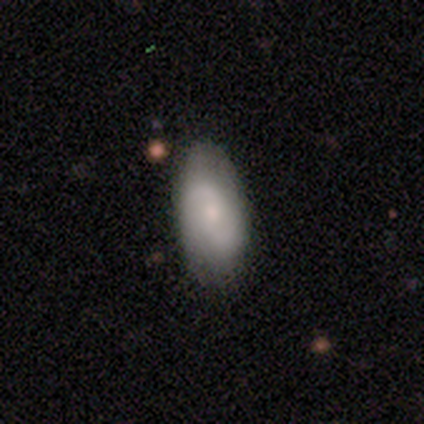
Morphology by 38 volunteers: Smooth or featured: featured or disk — 53% (smooth — 42%)
Edge-on disk: no — 100%
Bar: weak — 60% (no — 40%)
Spiral arms: yes — 90% (no — 10%)
Spiral winding: medium — 39% (loose — 33%)
Spiral arm count: 2 — 94% (can't tell — 6%)
Bulge size: small — 55% (moderate — 40%)
Merging: none — 67% (minor disturbance — 11%)